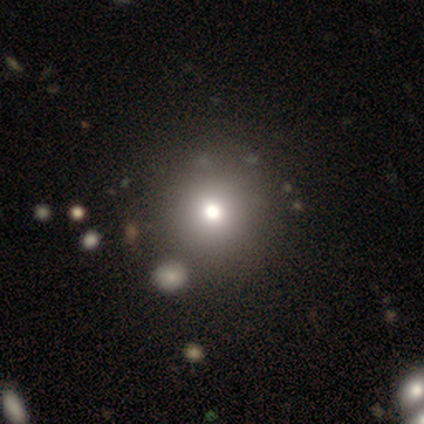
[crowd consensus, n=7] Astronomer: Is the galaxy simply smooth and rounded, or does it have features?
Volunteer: smooth — 71%.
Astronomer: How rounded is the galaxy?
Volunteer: round — 100%.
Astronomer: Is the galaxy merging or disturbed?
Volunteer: none — 83%.